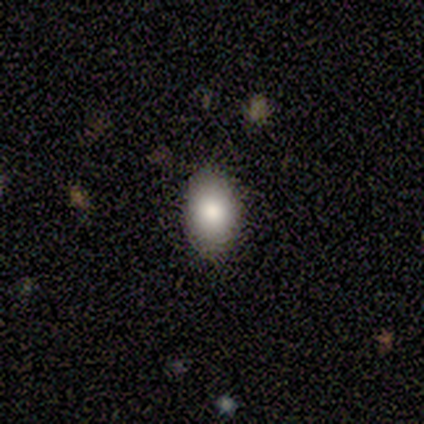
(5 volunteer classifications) Smooth or featured? smooth (80%)
How rounded? in between (100%)
Merging? none (100%)